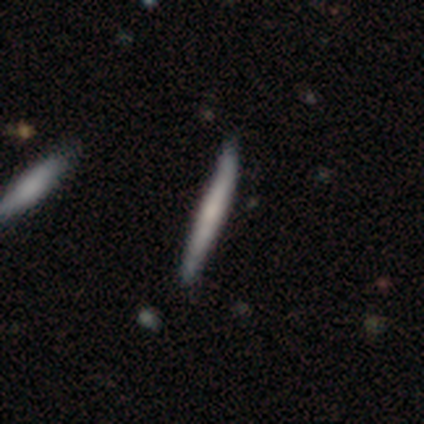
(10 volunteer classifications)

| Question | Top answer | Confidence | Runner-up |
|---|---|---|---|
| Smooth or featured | smooth | 50% | tied: featured or disk (50%) |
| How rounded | cigar-shaped | 100% | — |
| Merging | none | 50% | tied: minor disturbance (50%) |